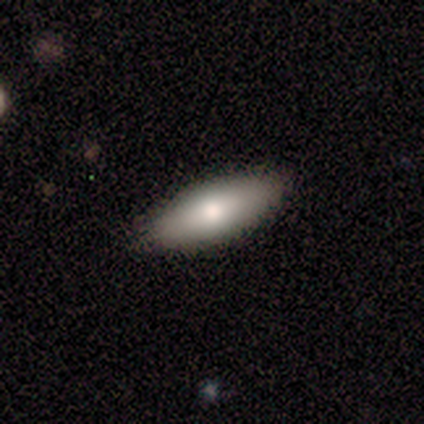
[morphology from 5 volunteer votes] smooth 100%, featured or disk 0%, star or artifact 0%. Down the decision tree: how rounded — in between (100%); merging — none (100%).